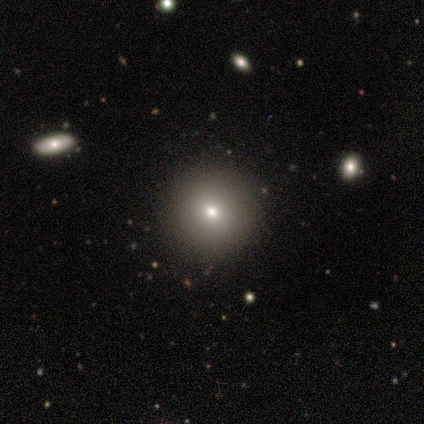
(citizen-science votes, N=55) Overall: smooth (73%). How rounded: round (90%). Merging: none (94%).